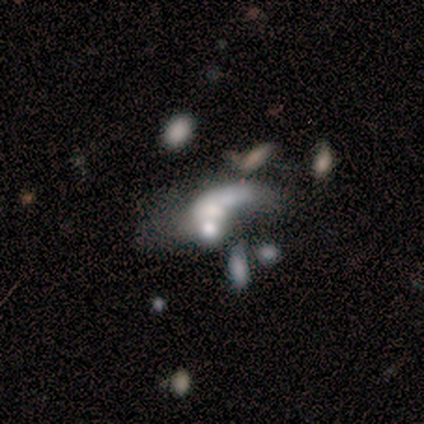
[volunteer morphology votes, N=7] Smooth or featured? 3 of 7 (43%) said featured or disk. Edge-on disk? 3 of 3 (100%) said no. Bar? 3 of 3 (100%) said no. Spiral arms? 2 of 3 (67%) said no. Bulge size? 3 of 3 (100%) said moderate. Merging? 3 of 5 (60%) said merger.